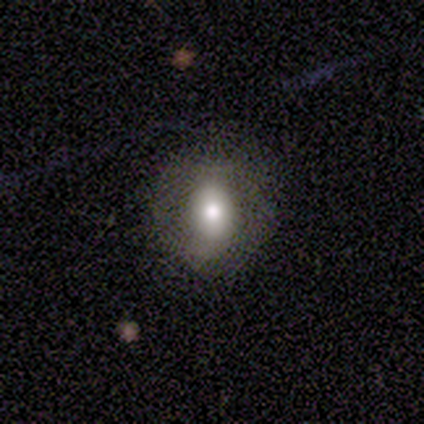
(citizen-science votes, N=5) This is clearly a smooth galaxy (80%). How rounded: clearly in between (100%). Merging: clearly none (80%).